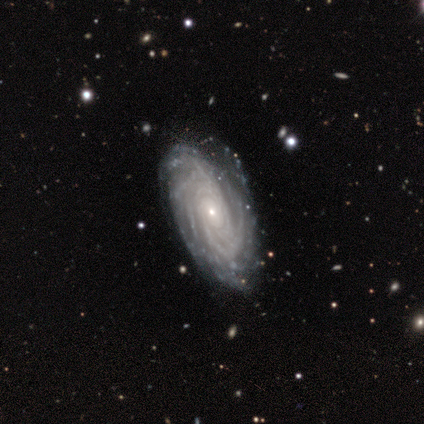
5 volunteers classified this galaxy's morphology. Overall: featured or disk (100%). Edge-on disk: no (80%). Bar: no (100%). Spiral arms: yes (100%). Spiral arm count: more than 4 (100%). Spiral winding: tight (100%). Bulge size: small (75%). Merging: none (80%).